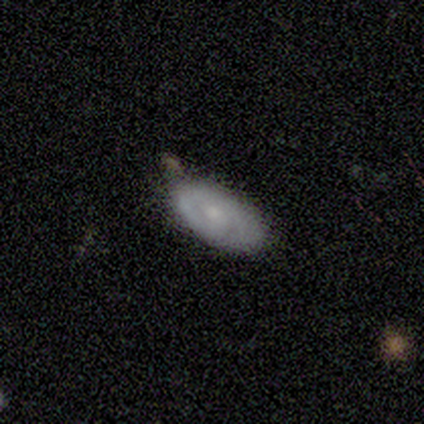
featured or disk 60%, smooth 40%, star or artifact 0%. Down the decision tree: edge-on disk — no (100%); bar — weak (100%); spiral arms — yes (67%); spiral arm count — 1 (50%, tied with can't tell); spiral winding — tight (50%, tied with medium); bulge size — small (67%); merging — none (60%).